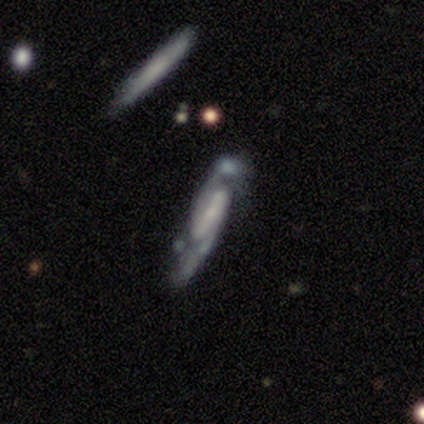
Smooth or featured? 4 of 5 (80%) said featured or disk. Edge-on disk? 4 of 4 (100%) said no. Bar? 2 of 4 (50%) said weak. Spiral arms? 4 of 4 (100%) said yes. Spiral winding? 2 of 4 (50%) said medium. Spiral arm count? 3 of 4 (75%) said 2. Bulge size? 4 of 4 (100%) said small. Merging? 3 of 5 (60%) said minor disturbance.